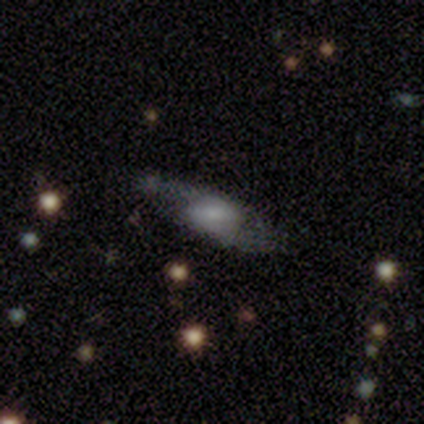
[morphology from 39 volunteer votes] This is likely a featured or disk galaxy (72%). It is clearly not viewed edge-on (82%). Bar: marginally strong (39%). Spiral arm pattern: clearly yes (83%). Spiral arm count: clearly 2 (84%). Spiral winding: possibly loose (53%). Central bulge: marginally large (30%). Merging: likely none (71%).